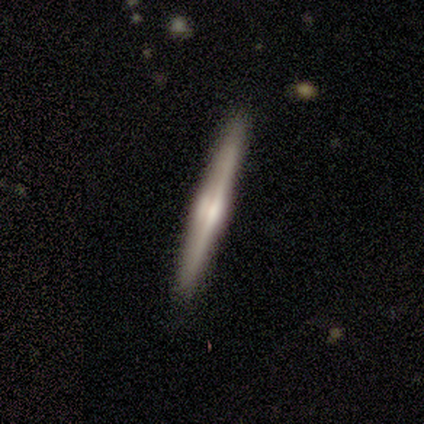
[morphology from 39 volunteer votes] This appears to be a featured or disk galaxy (74%) viewed edge-on (100%) with a rounded central bulge (76%). Merging: none (95%).